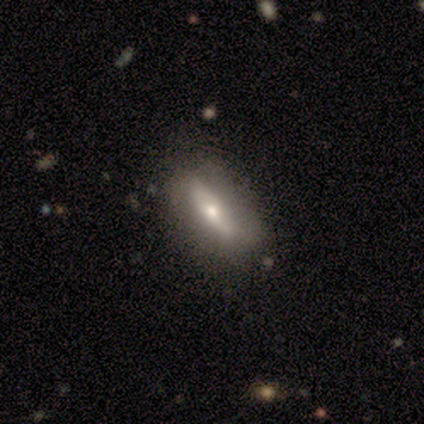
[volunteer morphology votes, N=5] Smooth or featured? 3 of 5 (60%) said featured or disk. Edge-on disk? 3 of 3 (100%) said no. Bar? 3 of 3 (100%) said no. Spiral arms? 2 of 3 (67%) said yes. Spiral winding? 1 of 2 (50%, tied with medium) said tight. Spiral arm count? 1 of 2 (50%, tied with can't tell) said 2. Bulge size? 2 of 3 (67%) said small. Merging? 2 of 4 (50%) said minor disturbance.